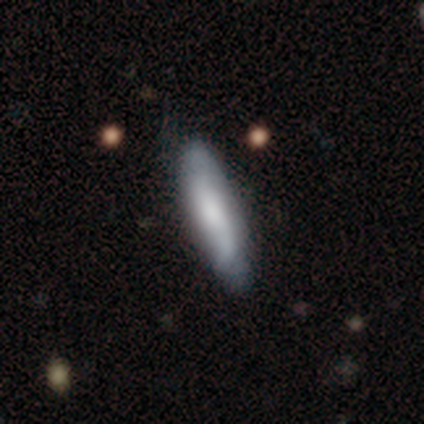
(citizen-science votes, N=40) A smooth galaxy with no disk features (50%, tied with featured or disk) that is cigar-shaped (75%).

Vote fractions:
- Smooth or featured? smooth: 50% (tied) / featured or disk: 50% (tied) / star or artifact: 0%
- How rounded? cigar-shaped: 75% / in between: 25% / round: 0%
- Merging? none: 65% / minor disturbance: 25% / major disturbance: 2% / merger: 0%